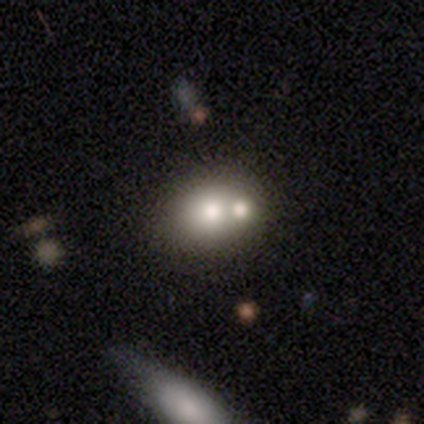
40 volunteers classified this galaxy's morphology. smooth-or-featured: smooth: 78% | featured or disk: 15% | star or artifact: 8%
  how-rounded: round: 55% | in between: 45% | cigar-shaped: 0%
  merging: merger: 68% | none: 0% | minor disturbance: 0% | major disturbance: 0%